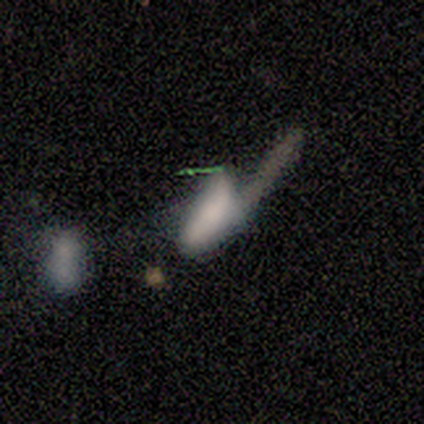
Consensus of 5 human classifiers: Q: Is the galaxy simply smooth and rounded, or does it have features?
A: smooth — 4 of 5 (80%).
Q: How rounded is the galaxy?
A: in between — 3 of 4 (75%).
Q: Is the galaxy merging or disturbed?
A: major disturbance — 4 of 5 (80%).